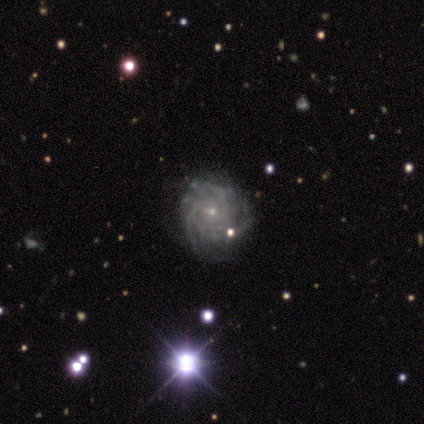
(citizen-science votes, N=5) Volunteers were most divided on "spiral arm count": 3: 60%, more than 4: 20%, can't tell: 20%, 1: 0%, 2: 0%, 4: 0%. More confident: smooth or featured — featured or disk (100%); edge-on disk — no (100%); bar — no (100%); spiral arms — yes (100%); bulge size — small (100%); spiral winding — tight (80%); merging — major disturbance (60%).